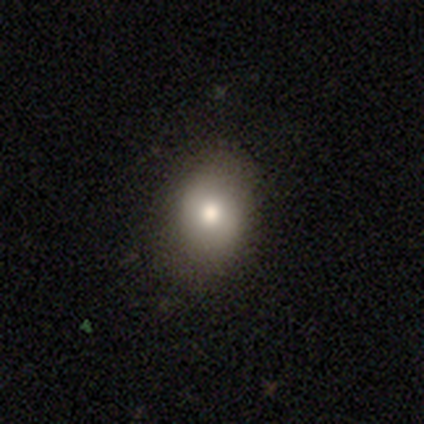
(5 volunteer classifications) This appears to be a smooth galaxy with no disk features (40%, tied with featured or disk) that is round (50%, tied with in between). Merging: none (75%).